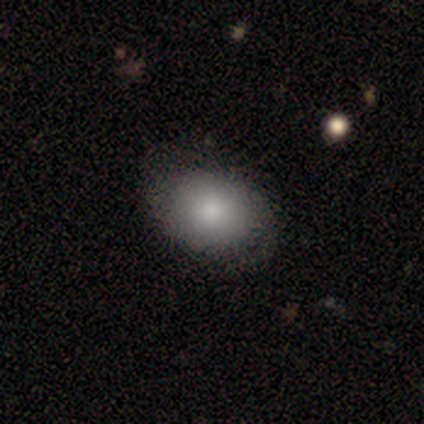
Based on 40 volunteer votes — Smooth or featured? 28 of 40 (70%) said smooth. How rounded? 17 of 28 (61%) said in between. Merging? 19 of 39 (49%) said none.